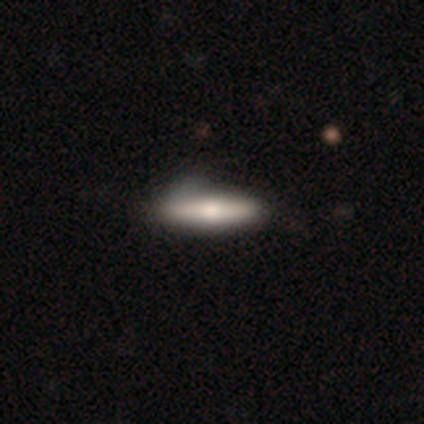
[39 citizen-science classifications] This is possibly a smooth galaxy (56%). How rounded: clearly cigar-shaped (95%). Merging: marginally none (41%).